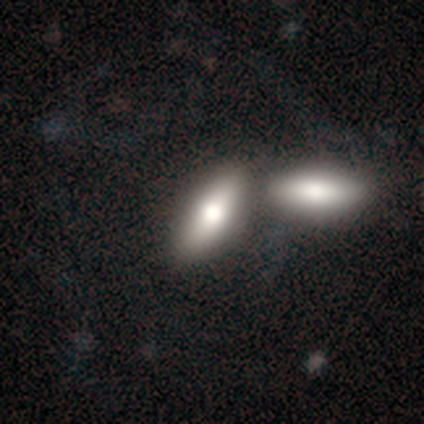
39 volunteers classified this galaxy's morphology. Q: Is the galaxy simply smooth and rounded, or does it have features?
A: smooth — 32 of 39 (82%).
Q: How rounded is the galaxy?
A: in between — 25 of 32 (78%).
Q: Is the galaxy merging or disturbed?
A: merger — 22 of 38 (58%).